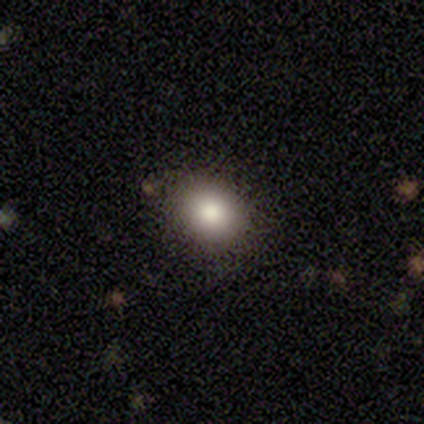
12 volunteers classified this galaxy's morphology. Smooth or featured? 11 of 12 (92%) said smooth. How rounded? 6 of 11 (55%) said in between. Merging? 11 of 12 (92%) said none.